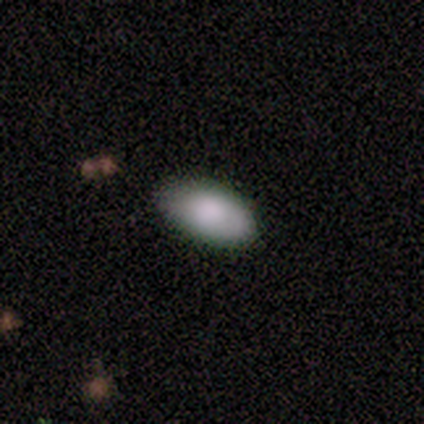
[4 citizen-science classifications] This appears to be a smooth galaxy with no disk features (75%) that is in between round and cigar-shaped (67%). Merging: minor disturbance (75%).